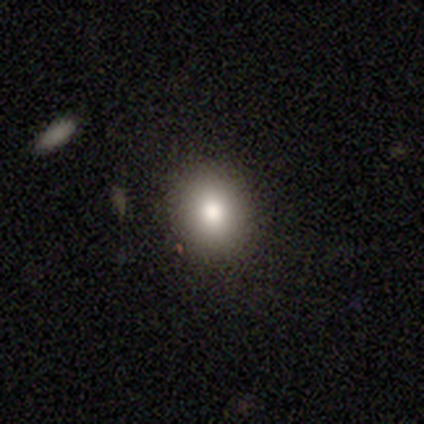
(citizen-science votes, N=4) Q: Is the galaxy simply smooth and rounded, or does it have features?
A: smooth — 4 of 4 (100%).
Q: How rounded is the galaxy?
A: round — 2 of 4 (50%, tied with in between).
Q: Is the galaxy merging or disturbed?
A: none — 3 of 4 (75%).